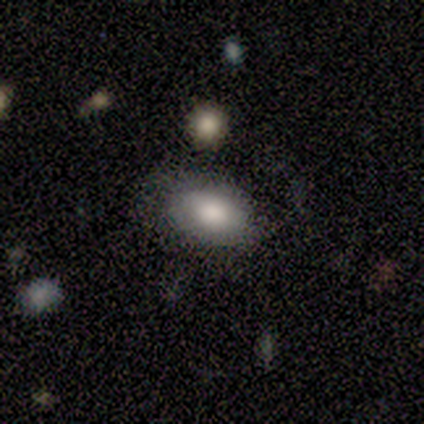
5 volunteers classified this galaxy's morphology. smooth-or-featured: smooth: 80% | featured or disk: 20% | star or artifact: 0%
  how-rounded: in between: 100% | round: 0% | cigar-shaped: 0%
  merging: none: 40% (tied) | minor disturbance: 40% (tied) | major disturbance: 20% | merger: 0%